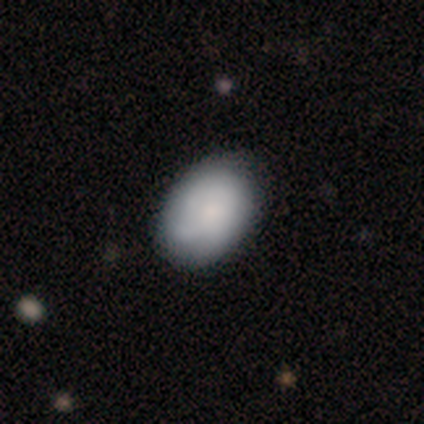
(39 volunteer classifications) Smooth or featured: smooth — 82% (featured or disk — 15%)
How rounded: in between — 81% (round — 19%)
Merging: none — 45% (minor disturbance — 18%)